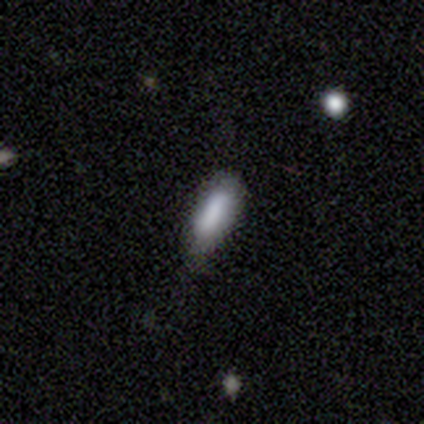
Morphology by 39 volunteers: Smooth or featured? 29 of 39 (74%) said smooth. How rounded? 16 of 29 (55%) said cigar-shaped. Merging? 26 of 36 (72%) said none.